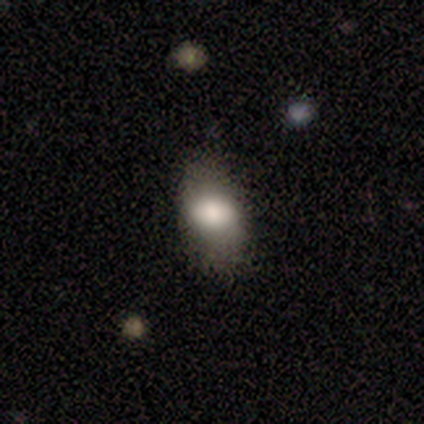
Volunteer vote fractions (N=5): Smooth or featured: smooth — 100%
How rounded: in between — 100%
Merging: none — 100%